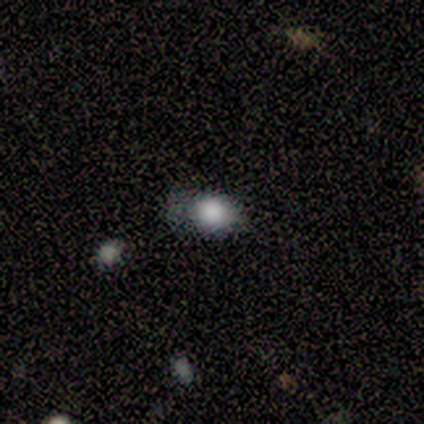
Smooth or featured? 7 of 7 (100%) said smooth. How rounded? 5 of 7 (71%) said in between. Merging? 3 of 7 (43%, tied with minor disturbance) said none.